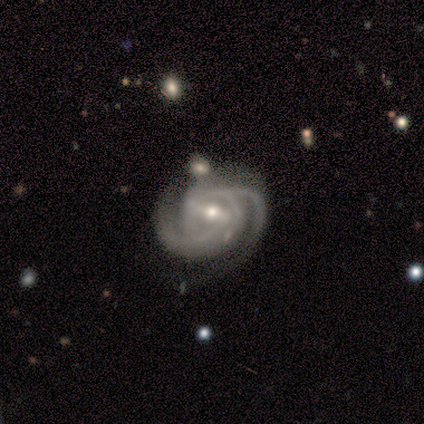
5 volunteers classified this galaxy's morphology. A featured or disk galaxy (100%) with a strong bar (60%), 2 (60%) tight (60%) spiral arms (100%) and a moderate central bulge (80%). Merging: none (80%).